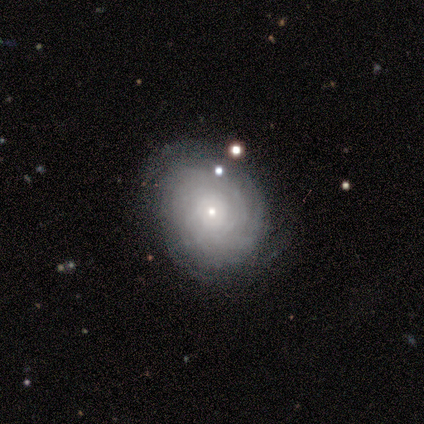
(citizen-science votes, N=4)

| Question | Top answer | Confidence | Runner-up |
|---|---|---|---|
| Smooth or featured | featured or disk | 75% | smooth (25%) |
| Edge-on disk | no | 100% | — |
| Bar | no | 100% | — |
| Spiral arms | yes | 100% | — |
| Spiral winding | tight | 100% | — |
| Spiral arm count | can't tell | 67% | more than 4 (33%) |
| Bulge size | small | 67% | moderate (33%) |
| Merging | none | 75% | minor disturbance (25%) |